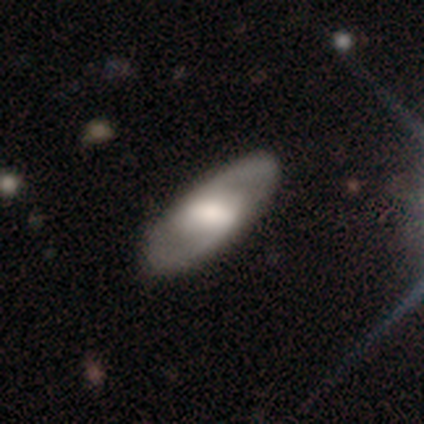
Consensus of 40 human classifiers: Overall: featured or disk (62%; smooth 35%). Edge-on disk: no (84%). Bar: weak (48%; strong 43%). Spiral arms: yes (81%). Spiral arm count: 2 (88%). Spiral winding: medium (71%). Bulge size: moderate (43%; large 33%). Merging: none (87%).